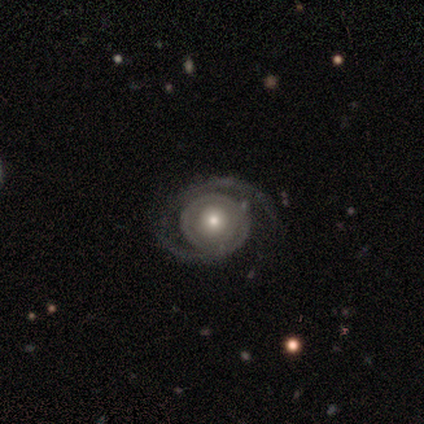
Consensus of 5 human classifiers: A featured or disk galaxy (100%) with no bar (100%), 1 (80%) tight (40%, tied with medium) spiral arms (100%) and a moderate central bulge (80%).

Vote fractions:
- Smooth or featured? featured or disk: 100% / smooth: 0% / star or artifact: 0%
- Edge-on disk? no: 100% / yes: 0%
- Bar? no: 100% / strong: 0% / weak: 0%
- Spiral arms? yes: 100% / no: 0%
- Spiral winding? tight: 40% (tied) / medium: 40% (tied) / loose: 20%
- Spiral arm count? 1: 80% / can't tell: 20% / 2: 0% / 3: 0% / 4: 0% / more than 4: 0%
- Bulge size? moderate: 80% / small: 20% / dominant: 0% / large: 0% / none: 0%
- Merging? none: 60% / major disturbance: 20% / merger: 20% / minor disturbance: 0%